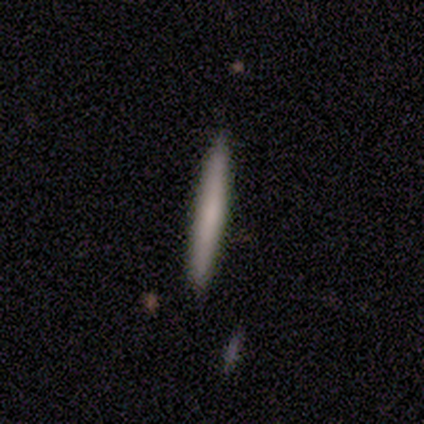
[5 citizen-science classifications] A featured or disk galaxy (80%) viewed edge-on (100%) with no central bulge (100%).

Vote fractions:
- Smooth or featured? featured or disk: 80% / smooth: 20% / star or artifact: 0%
- Edge-on disk? yes: 100% / no: 0%
- Edge-on bulge? none: 100% / boxy: 0% / rounded: 0%
- Merging? none: 100% / minor disturbance: 0% / major disturbance: 0% / merger: 0%